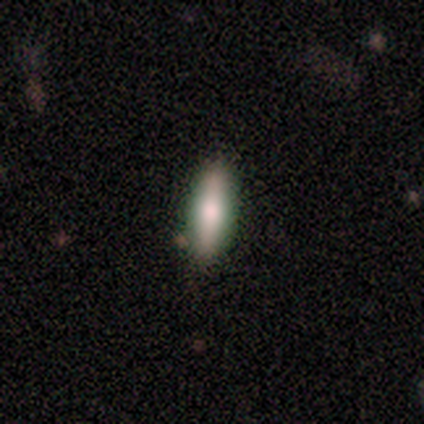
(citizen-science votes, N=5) Morphology: type=smooth (60%); roundness=cigar-shaped (67%); merging=none (100%).